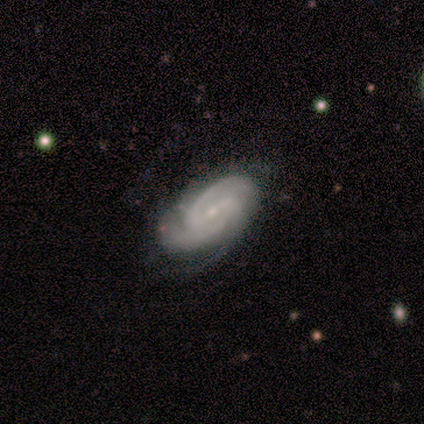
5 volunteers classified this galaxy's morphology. smooth-or-featured: featured or disk: 80% | smooth: 20% | star or artifact: 0%
  disk-edge-on: no: 100% | yes: 0%
    bar: weak: 75% | no: 25% | strong: 0%
    has-spiral-arms: yes: 100% | no: 0%
      spiral-winding: medium: 50% | tight: 25% | loose: 25%
      spiral-arm-count: 4: 50% | 1: 25% | 2: 25% | 3: 0% | more than 4: 0% | can't tell: 0%
    bulge-size: small: 50% | dominant: 25% | moderate: 25% | large: 0% | none: 0%
  merging: minor disturbance: 40% (tied) | major disturbance: 40% (tied) | none: 20% | merger: 0%